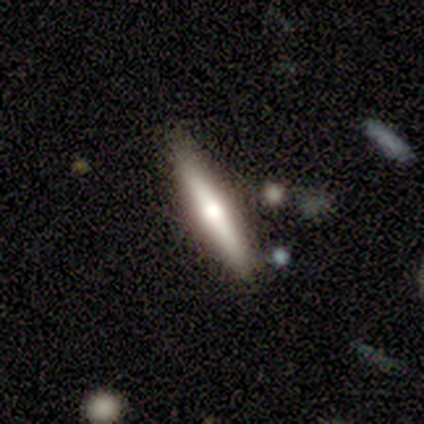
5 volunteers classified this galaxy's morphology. Smooth or featured: smooth — 100%
How rounded: cigar-shaped — 100%
Merging: none — 80% (minor disturbance — 20%)